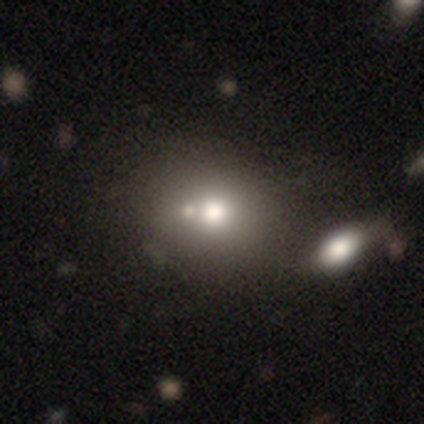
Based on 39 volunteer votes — This is possibly a smooth galaxy (59%). How rounded: likely round (70%). Merging: possibly merger (55%).